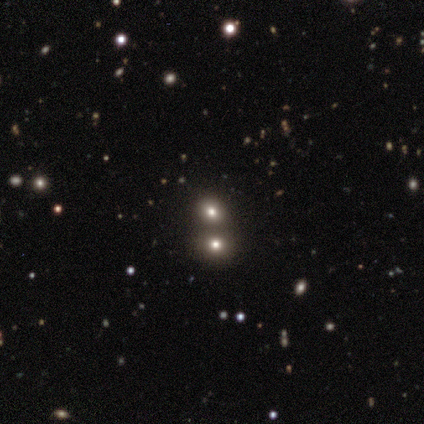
Volunteers were most divided on "smooth or featured": star or artifact: 75%, smooth: 25%, featured or disk: 0%.